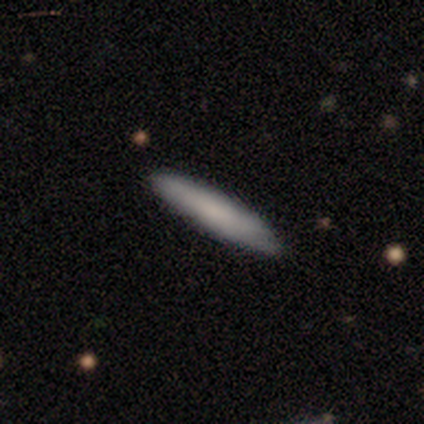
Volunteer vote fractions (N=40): Smooth or featured?
  - smooth: 82% *
  - featured or disk: 15%
  - star or artifact: 2%
How rounded?
  - cigar-shaped: 91% *
  - in between: 9%
  - round: 0%
Merging?
  - none: 69% *
  - minor disturbance: 15%
  - major disturbance: 0%
  - merger: 0%